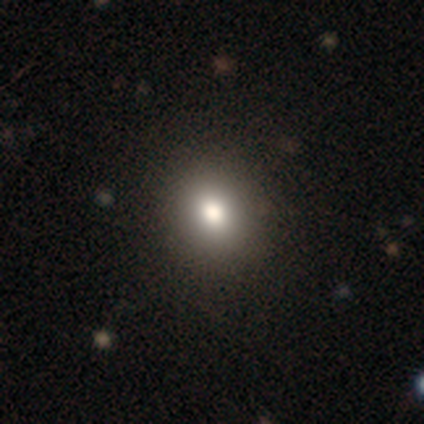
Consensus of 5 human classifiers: Morphology: type=smooth (60%); roundness=round (67%); merging=none (100%).